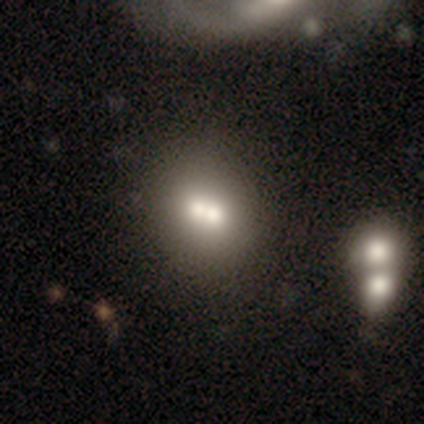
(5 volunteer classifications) Smooth or featured?
  - smooth: 60% *
  - featured or disk: 40%
  - star or artifact: 0%
How rounded?
  - round: 67% *
  - cigar-shaped: 33%
  - in between: 0%
Merging?
  - none: 40% * (tied)
  - merger: 40% * (tied)
  - major disturbance: 20%
  - minor disturbance: 0%